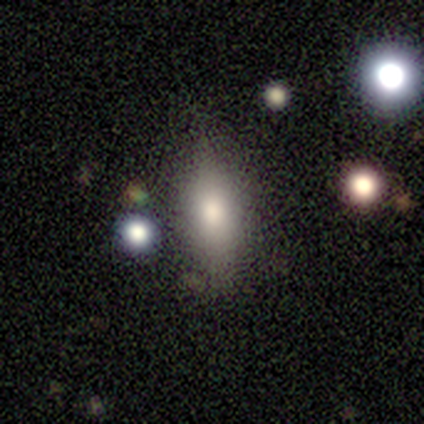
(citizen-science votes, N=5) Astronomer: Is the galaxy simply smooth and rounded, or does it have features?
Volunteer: smooth — 60% (runner-up: star or artifact, 40%).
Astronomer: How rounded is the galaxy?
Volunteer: in between — 67%.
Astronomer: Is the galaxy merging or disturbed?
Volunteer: none — 67%.